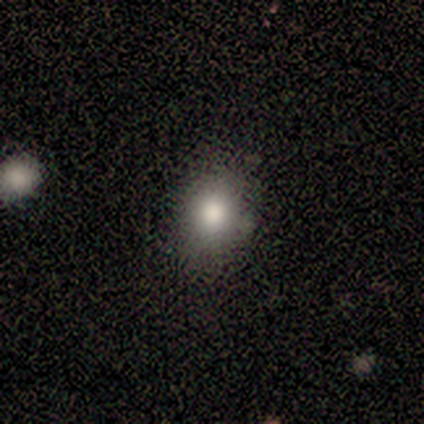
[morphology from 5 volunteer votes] type=smooth (80%); roundness=round (50%, tied with in between); merging=none (100%).